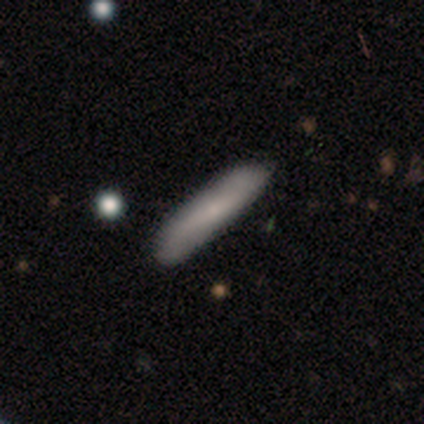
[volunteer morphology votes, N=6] smooth-or-featured: smooth: 100% | featured or disk: 0% | star or artifact: 0%
  how-rounded: cigar-shaped: 100% | round: 0% | in between: 0%
  merging: none: 83% | minor disturbance: 17% | major disturbance: 0% | merger: 0%